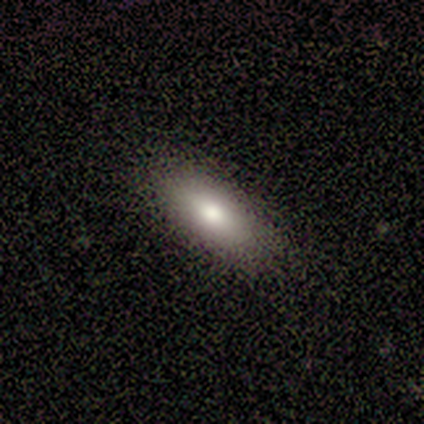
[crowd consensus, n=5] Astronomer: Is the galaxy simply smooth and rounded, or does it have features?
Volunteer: smooth — 100%.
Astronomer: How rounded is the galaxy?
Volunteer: in between — 100%.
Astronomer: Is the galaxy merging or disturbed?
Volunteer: none — 100%.